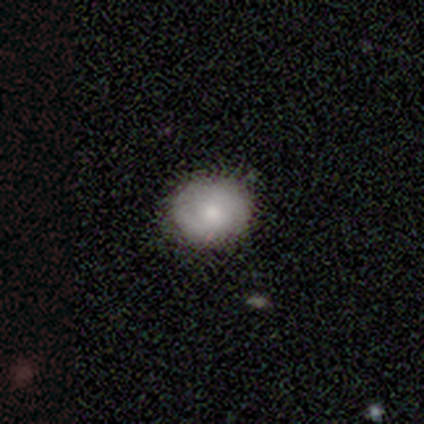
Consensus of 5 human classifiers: Volunteers were most divided on "merging": none: 60%, minor disturbance: 40%, major disturbance: 0%, merger: 0%. More confident: smooth or featured — smooth (100%); how rounded — round (80%).